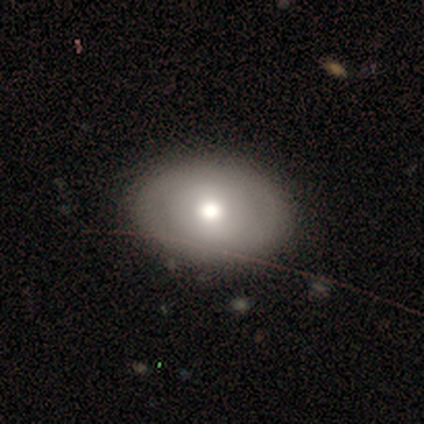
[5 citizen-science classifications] smooth_or_featured: featured or disk (p=0.80) [alt: smooth p=0.20]
disk_edge_on: no (p=1.00)
bar: no (p=1.00)
has_spiral_arms: no (p=1.00)
bulge_size: moderate (p=0.75) [alt: large p=0.25]
merging: none (p=1.00)